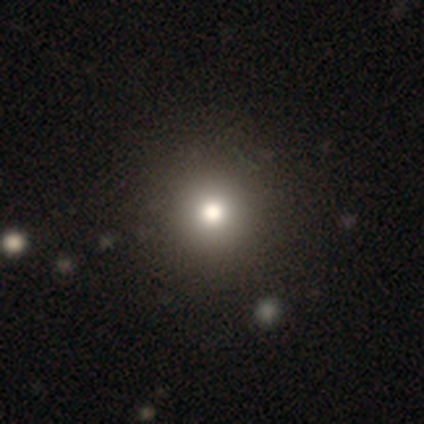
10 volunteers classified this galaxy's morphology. Q: Smooth or featured?
A: smooth (60%); runner-up: star or artifact (30%)
Q: How rounded?
A: round (100%)
Q: Merging?
A: none (100%)